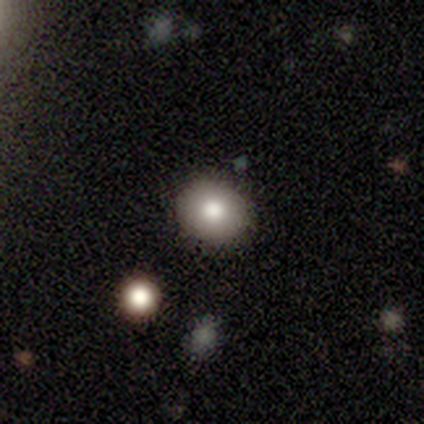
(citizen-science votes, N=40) A smooth galaxy with no disk features (72%) that is round (72%). Merging: none (86%).